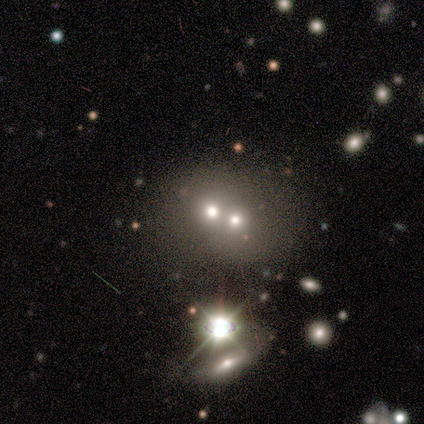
smooth-or-featured: star or artifact: 60% | smooth: 20% | featured or disk: 20%